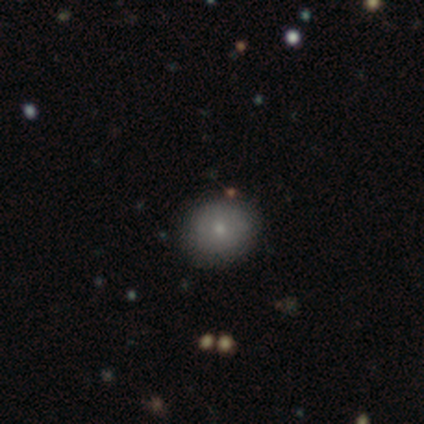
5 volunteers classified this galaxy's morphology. This appears to be a smooth galaxy with no disk features (80%) that is round (100%). Merging: none (100%).